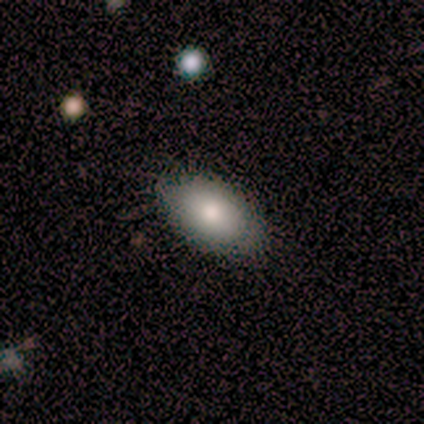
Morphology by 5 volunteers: type=smooth (80%); roundness=in between (100%); merging=none (100%).